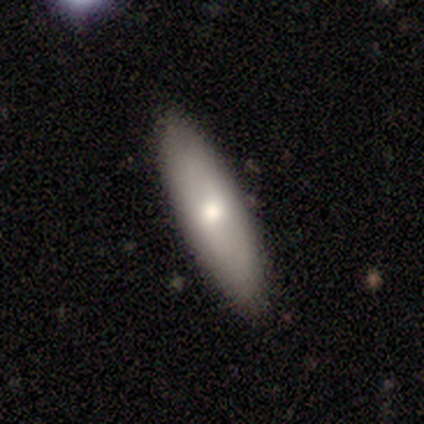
smooth 75%, featured or disk 25%, star or artifact 0%. Down the decision tree: how rounded — cigar-shaped (67%); merging — none (100%).